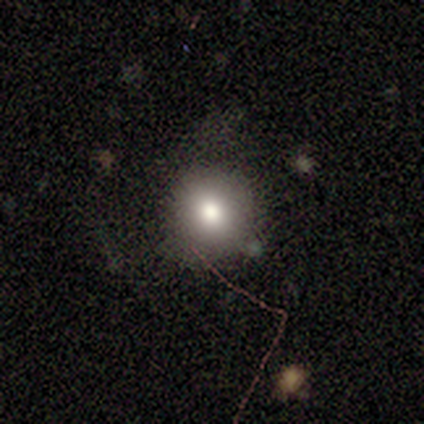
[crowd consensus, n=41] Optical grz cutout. It shows a smooth galaxy with no disk features (66%) that is round (89%). Merging: none (71%).